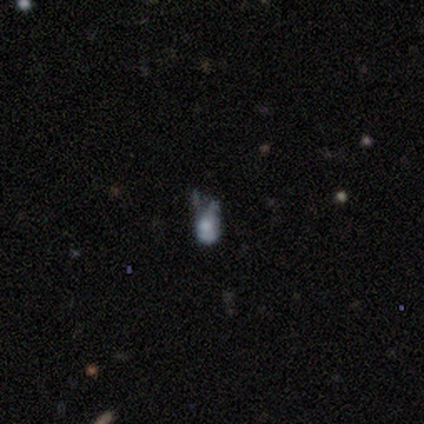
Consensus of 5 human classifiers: smooth 40% (tied), star or artifact 40% (tied), featured or disk 20%. Down the decision tree: how rounded — in between (100%); merging — none (33%, tied with minor disturbance and major disturbance).